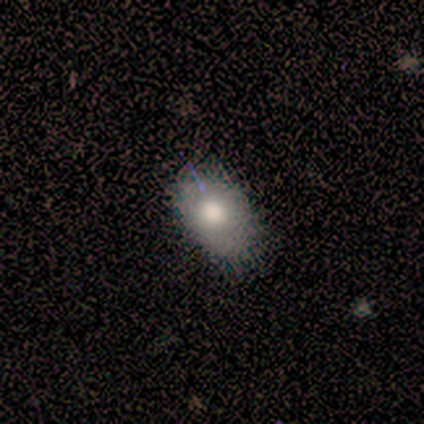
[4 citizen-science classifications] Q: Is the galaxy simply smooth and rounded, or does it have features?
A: smooth — 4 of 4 (100%).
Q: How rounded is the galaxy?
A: in between — 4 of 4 (100%).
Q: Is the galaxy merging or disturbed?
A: none — 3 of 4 (75%).